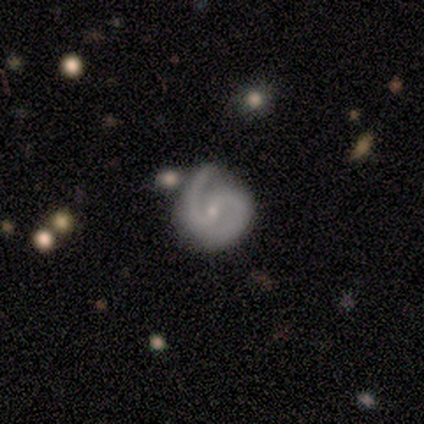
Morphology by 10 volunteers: A featured or disk galaxy (90%) with no bar (56%), 2 (100%) tight (44%, tied with medium) spiral arms (100%) and a small central bulge (89%). Merging: none (70%).